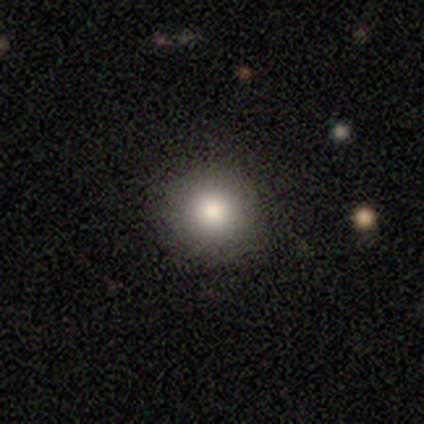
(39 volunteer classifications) smooth_or_featured: smooth (p=0.87) [alt: featured or disk p=0.08]
how_rounded: round (p=1.00)
merging: none (p=0.86) [alt: minor disturbance p=0.11]